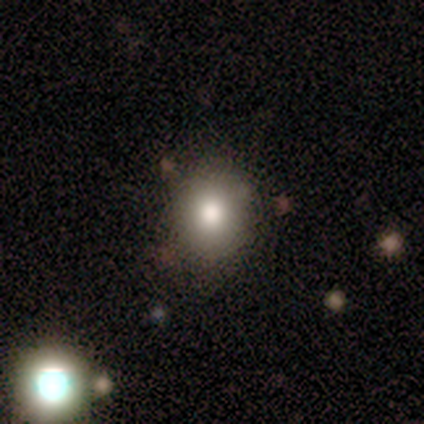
Q: Smooth or featured?
A: smooth (100%)
Q: How rounded?
A: round (100%)
Q: Merging?
A: none (100%)